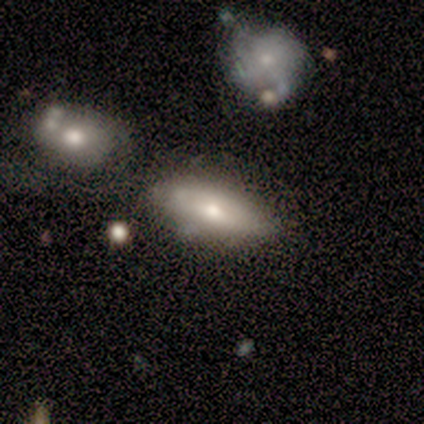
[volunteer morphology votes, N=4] Smooth or featured? 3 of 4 (75%) said smooth. How rounded? 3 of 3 (100%) said in between. Merging? 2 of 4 (50%) said major disturbance.